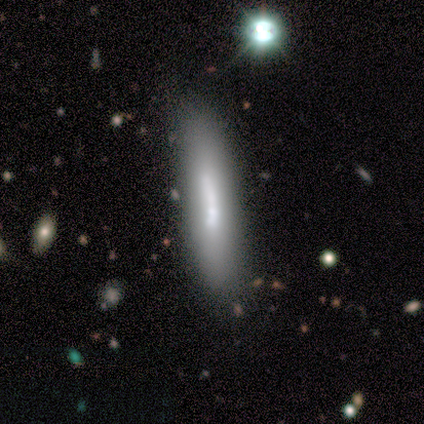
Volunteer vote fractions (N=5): Smooth or featured: featured or disk — 60% (smooth — 20%)
Edge-on disk: yes — 67% (no — 33%)
Edge-on bulge: boxy — 50% (tied with rounded — 50%)
Merging: none — 100%